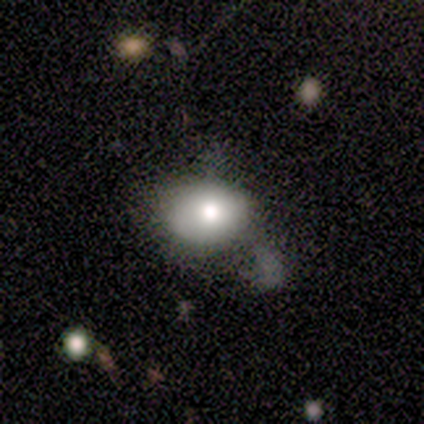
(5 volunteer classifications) smooth 80%, featured or disk 20%, star or artifact 0%. Down the decision tree: how rounded — in between (100%); merging — none (80%).